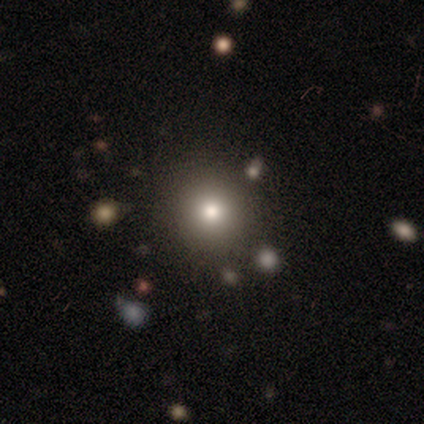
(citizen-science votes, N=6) Smooth or featured? 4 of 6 (67%) said smooth. How rounded? 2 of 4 (50%, tied with in between) said round. Merging? 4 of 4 (100%) said none.